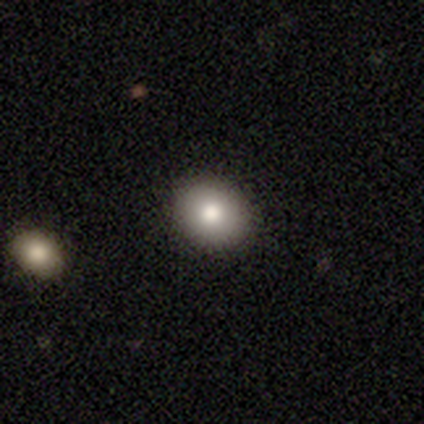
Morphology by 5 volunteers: This appears to be a smooth galaxy with no disk features (80%) that is in between round and cigar-shaped (75%). Merging: none (100%).